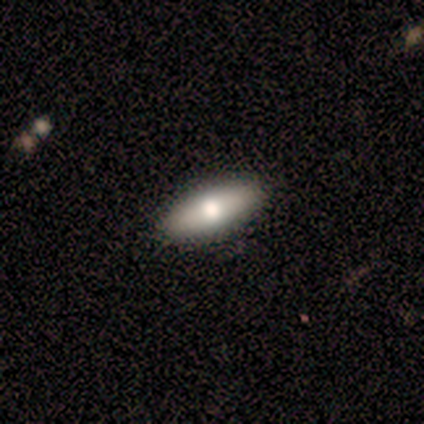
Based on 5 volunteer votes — A smooth galaxy with no disk features (80%) that is in between round and cigar-shaped (75%). Merging: none (100%).